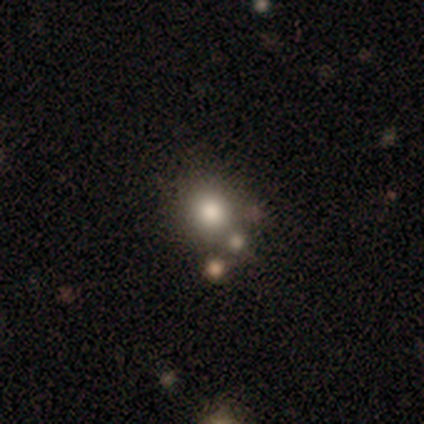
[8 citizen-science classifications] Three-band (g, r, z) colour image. It shows a smooth galaxy with no disk features (75%) that is round (50%, tied with in between). Merging: none (88%).